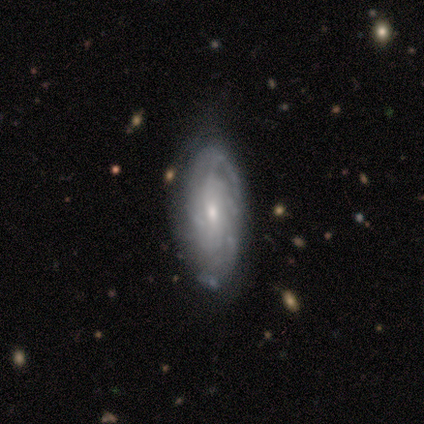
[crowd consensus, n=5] Smooth or featured?
  - featured or disk: 80% *
  - smooth: 20%
  - star or artifact: 0%
Edge-on disk?
  - no: 75% *
  - yes: 25%
Bar?
  - no: 67% *
  - weak: 33%
  - strong: 0%
Spiral arms?
  - yes: 67% *
  - no: 33%
Spiral winding?
  - tight: 100% *
  - medium: 0%
  - loose: 0%
Spiral arm count?
  - can't tell: 100% *
  - 1: 0%
  - 2: 0%
  - 3: 0%
  - 4: 0%
  - more than 4: 0%
Bulge size?
  - small: 67% *
  - moderate: 33%
  - dominant: 0%
  - large: 0%
  - none: 0%
Merging?
  - none: 80% *
  - major disturbance: 20%
  - minor disturbance: 0%
  - merger: 0%